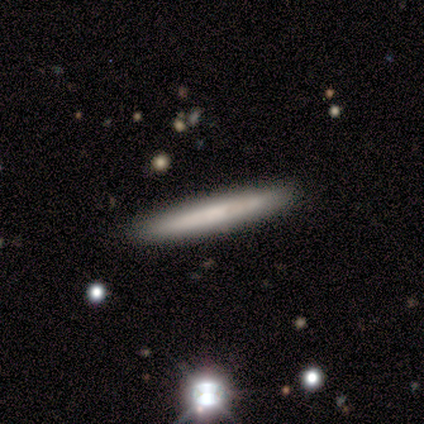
Smooth or featured?
  - smooth: 40% * (tied)
  - featured or disk: 40% * (tied)
  - star or artifact: 20%
How rounded?
  - in between: 50% * (tied)
  - cigar-shaped: 50% * (tied)
  - round: 0%
Merging?
  - none: 75% *
  - minor disturbance: 25%
  - major disturbance: 0%
  - merger: 0%